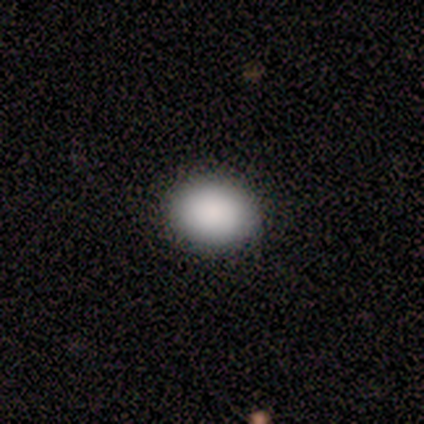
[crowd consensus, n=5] This appears to be a smooth galaxy with no disk features (100%) that is in between round and cigar-shaped (60%). Merging: none (100%).